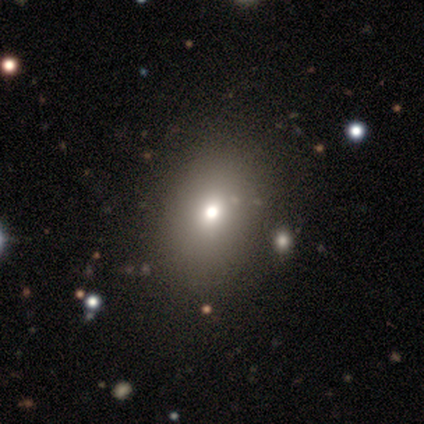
Smooth or featured: smooth — 66% (star or artifact — 25%)
How rounded: round — 50% (tied with in between — 50%)
Merging: none — 57% (minor disturbance — 15%)